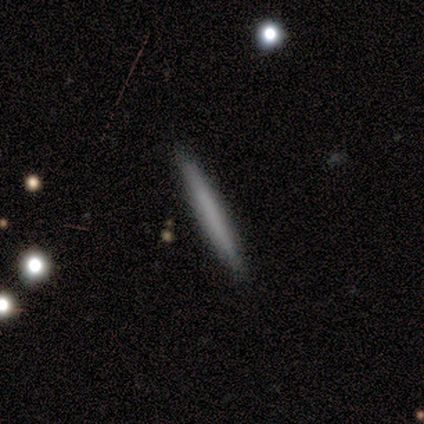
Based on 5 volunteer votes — Smooth or featured: smooth — 80% (star or artifact — 20%)
How rounded: cigar-shaped — 100%
Merging: none — 100%